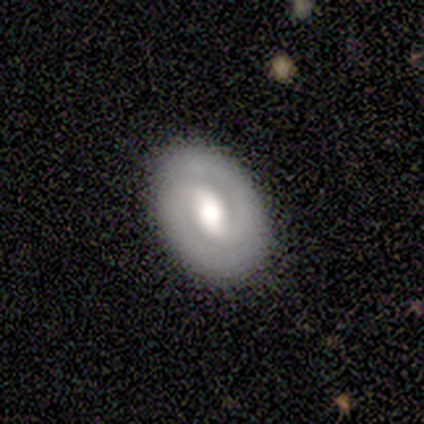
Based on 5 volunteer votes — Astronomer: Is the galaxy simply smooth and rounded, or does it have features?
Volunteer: featured or disk — 80%.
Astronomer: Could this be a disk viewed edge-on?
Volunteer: no — 100%.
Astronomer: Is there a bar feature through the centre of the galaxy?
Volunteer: strong — 50%, tied with no at 50%.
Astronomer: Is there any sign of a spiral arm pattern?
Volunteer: yes — 75%.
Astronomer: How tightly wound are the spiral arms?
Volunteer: tight — 33%, tied with medium and loose at 33%.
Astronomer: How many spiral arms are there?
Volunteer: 2 — 100%.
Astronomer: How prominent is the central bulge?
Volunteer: moderate — 50%.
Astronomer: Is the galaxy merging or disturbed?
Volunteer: none — 80%.